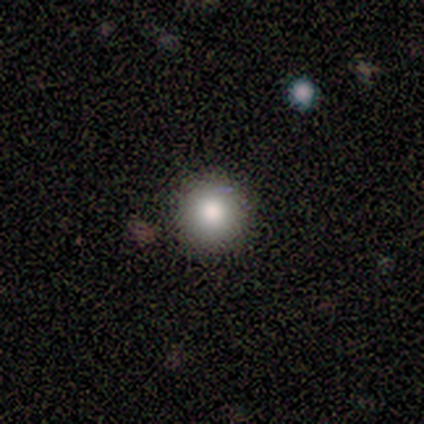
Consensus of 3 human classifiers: A smooth galaxy with no disk features (67%) that is round (100%). Merging: none (100%).